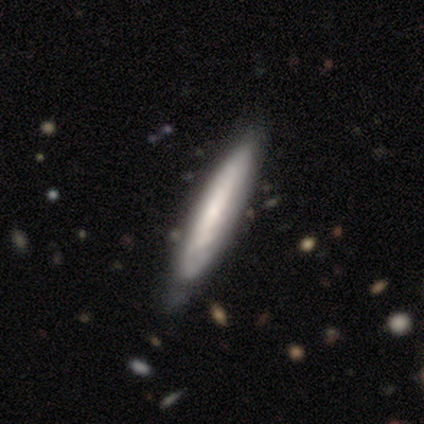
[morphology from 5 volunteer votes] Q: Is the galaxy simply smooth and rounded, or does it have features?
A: featured or disk — 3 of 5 (60%).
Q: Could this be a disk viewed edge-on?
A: yes — 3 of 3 (100%).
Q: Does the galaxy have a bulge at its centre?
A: none — 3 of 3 (100%).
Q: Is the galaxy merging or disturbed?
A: none — 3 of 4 (75%).